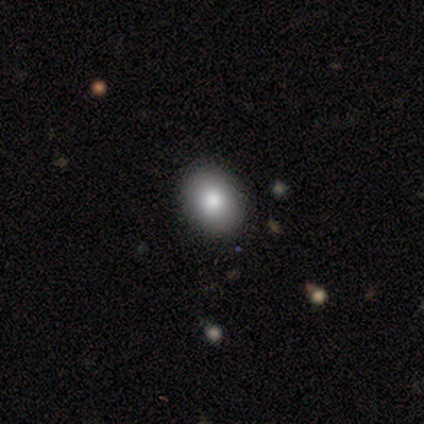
A smooth galaxy with no disk features (80%) that is in between round and cigar-shaped (75%).

Vote fractions:
- Smooth or featured? smooth: 80% / star or artifact: 20% / featured or disk: 0%
- How rounded? in between: 75% / round: 25% / cigar-shaped: 0%
- Merging? none: 100% / minor disturbance: 0% / major disturbance: 0% / merger: 0%